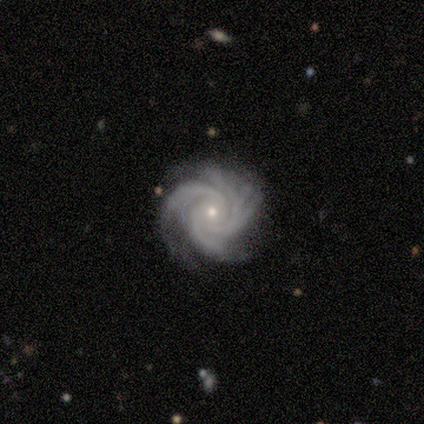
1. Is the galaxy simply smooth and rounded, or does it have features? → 100% featured or disk, 0% smooth, 0% star or artifact.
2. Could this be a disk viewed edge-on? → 100% no, 0% yes.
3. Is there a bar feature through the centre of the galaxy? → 43% weak (tied), 43% no (tied), 14% strong.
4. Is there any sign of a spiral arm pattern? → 100% yes, 0% no.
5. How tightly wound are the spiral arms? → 100% tight, 0% medium, 0% loose.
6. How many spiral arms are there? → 71% 3, 14% 4, 14% more than 4, 0% 1, 0% 2, 0% can't tell.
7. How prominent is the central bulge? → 57% moderate, 43% small, 0% dominant, 0% large, 0% none.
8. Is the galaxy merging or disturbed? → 86% none, 14% merger, 0% minor disturbance, 0% major disturbance.